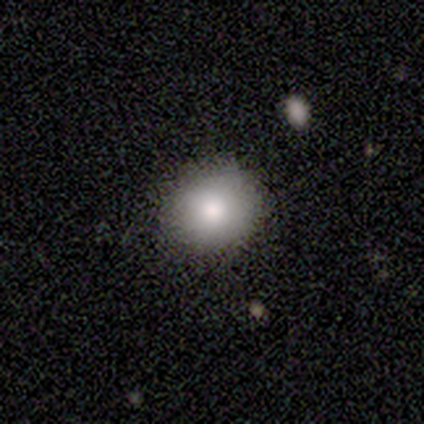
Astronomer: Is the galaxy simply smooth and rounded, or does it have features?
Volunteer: smooth — 60% (runner-up: featured or disk, 40%).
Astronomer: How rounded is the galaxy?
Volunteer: round — 67%.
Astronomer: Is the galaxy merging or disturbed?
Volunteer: none — 100%.